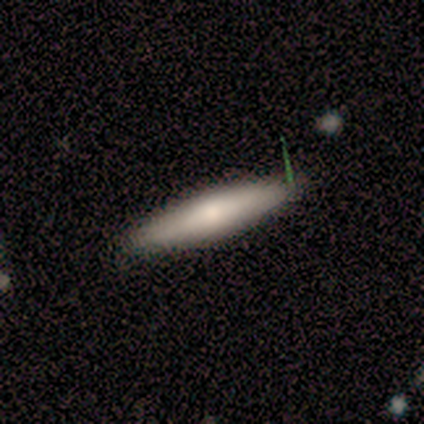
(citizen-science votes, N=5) This is likely a smooth galaxy (60%). How rounded: clearly cigar-shaped (100%). Merging: clearly none (100%).